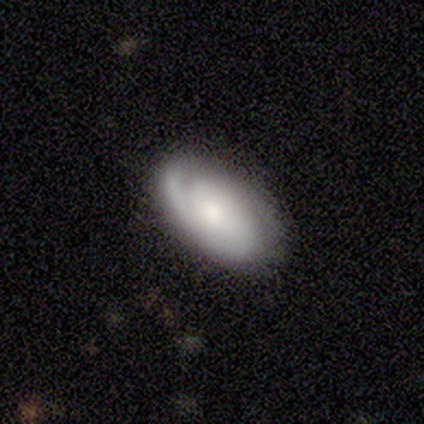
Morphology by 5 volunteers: featured or disk 60%, smooth 40%, star or artifact 0%. Down the decision tree: edge-on disk — no (100%); bar — no (100%); spiral arms — yes (67%); spiral arm count — 2 (50%, tied with 3); spiral winding — tight (100%); bulge size — moderate (100%); merging — none (100%).